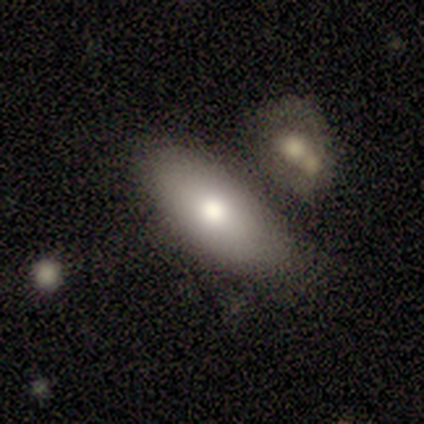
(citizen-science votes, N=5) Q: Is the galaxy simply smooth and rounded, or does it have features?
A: smooth — 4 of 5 (80%).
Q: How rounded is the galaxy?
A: in between — 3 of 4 (75%).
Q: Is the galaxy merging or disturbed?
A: none — 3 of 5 (60%).